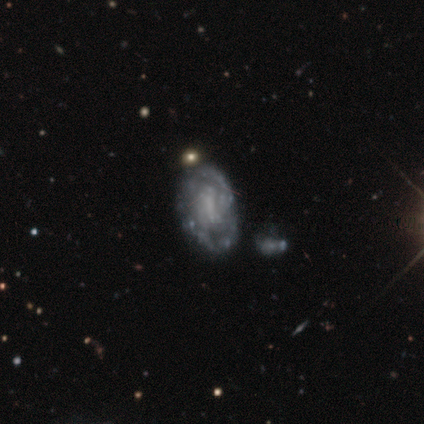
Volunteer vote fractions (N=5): Q: Smooth or featured?
A: smooth (80%); runner-up: star or artifact (20%)
Q: How rounded?
A: in between (75%); runner-up: round (25%)
Q: Merging?
A: none (50%); runner-up: minor disturbance (25%)